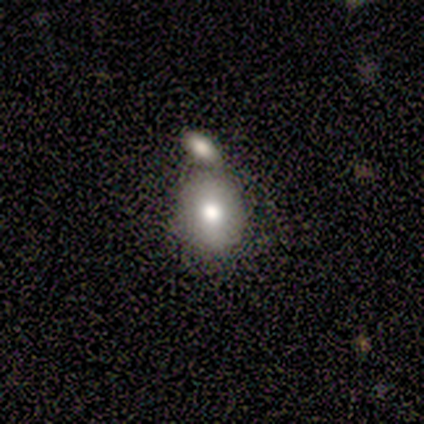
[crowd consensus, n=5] Smooth or featured? 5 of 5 (100%) said smooth. How rounded? 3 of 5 (60%) said in between. Merging? 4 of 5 (80%) said merger.